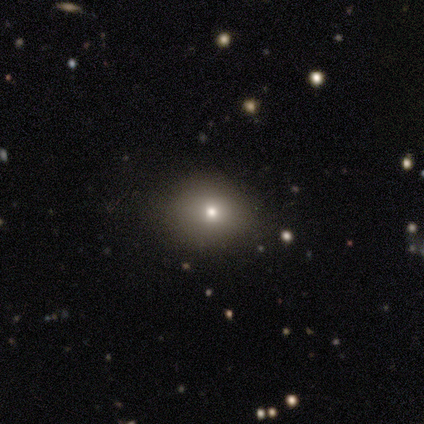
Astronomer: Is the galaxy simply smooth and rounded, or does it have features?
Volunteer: smooth — 50% (runner-up: featured or disk, 33%).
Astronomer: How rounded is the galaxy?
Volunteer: round — 67%.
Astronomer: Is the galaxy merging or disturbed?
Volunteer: none — 100%.